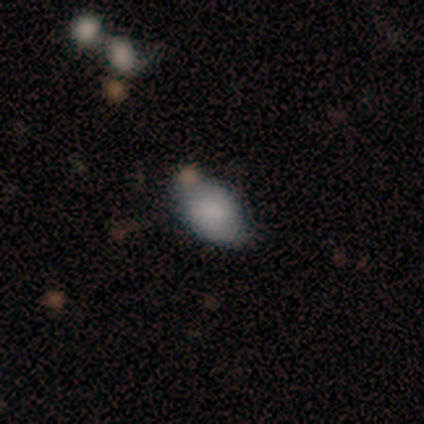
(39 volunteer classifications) Smooth or featured: smooth — 82% (featured or disk — 15%)
How rounded: in between — 88% (round — 12%)
Merging: none — 61% (minor disturbance — 21%)